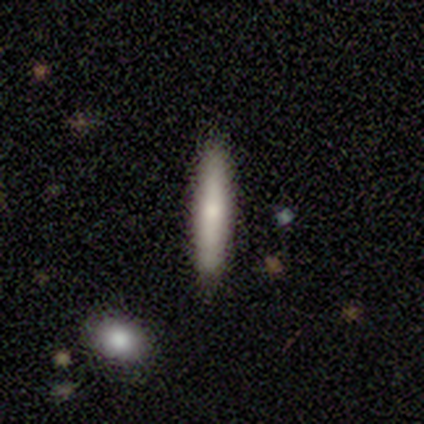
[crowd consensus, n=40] smooth 72%, featured or disk 25%, star or artifact 2%. Down the decision tree: how rounded — cigar-shaped (93%); merging — none (90%).